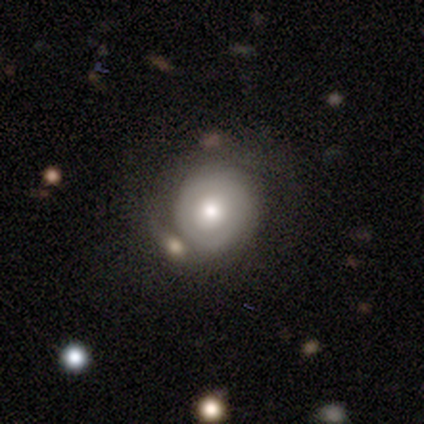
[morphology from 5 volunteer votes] Volunteers were most divided on "spiral arm count" (2-way tie): 1: 50%, can't tell: 50%, 2: 0%, 3: 0%, 4: 0%, more than 4: 0%; "merging" (4-way tie): none: 25%, minor disturbance: 25%, major disturbance: 25%, merger: 25%. More confident: bar — no (100%); spiral arms — yes (100%); spiral winding — tight (100%); bulge size — moderate (100%); edge-on disk — no (67%); smooth or featured — featured or disk (60%).